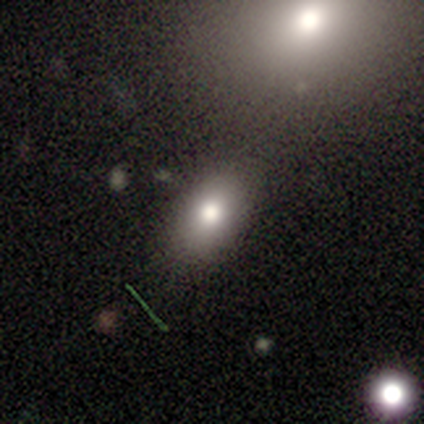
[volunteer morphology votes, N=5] smooth_or_featured: smooth (p=0.80) [alt: featured or disk p=0.20]
how_rounded: round (p=0.50) [tied with: in between p=0.50]
merging: none (p=1.00)